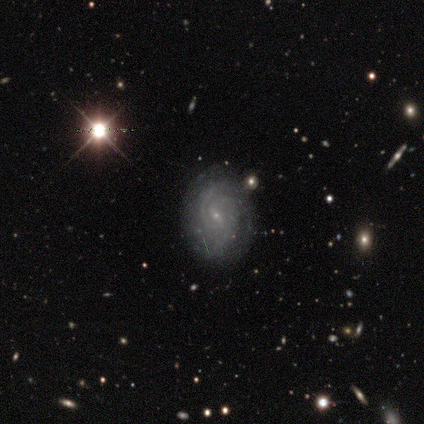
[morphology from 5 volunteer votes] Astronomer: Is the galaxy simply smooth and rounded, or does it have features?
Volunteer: featured or disk — 60% (runner-up: star or artifact, 40%).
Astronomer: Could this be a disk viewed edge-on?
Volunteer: no — 100%.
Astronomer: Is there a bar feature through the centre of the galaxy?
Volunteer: weak — 67%.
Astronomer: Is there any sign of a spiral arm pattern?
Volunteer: yes — 100%.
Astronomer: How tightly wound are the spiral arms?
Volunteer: medium — 67%.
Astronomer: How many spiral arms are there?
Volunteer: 2 — 67%.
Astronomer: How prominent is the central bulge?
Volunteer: small — 100%.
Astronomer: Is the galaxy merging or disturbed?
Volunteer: none — 100%.